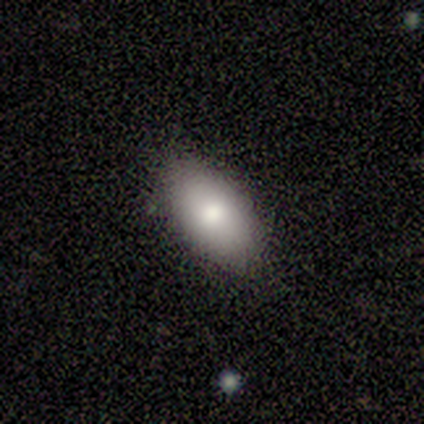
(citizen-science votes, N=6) Smooth or featured?
  - smooth: 100% *
  - featured or disk: 0%
  - star or artifact: 0%
How rounded?
  - in between: 100% *
  - round: 0%
  - cigar-shaped: 0%
Merging?
  - none: 100% *
  - minor disturbance: 0%
  - major disturbance: 0%
  - merger: 0%